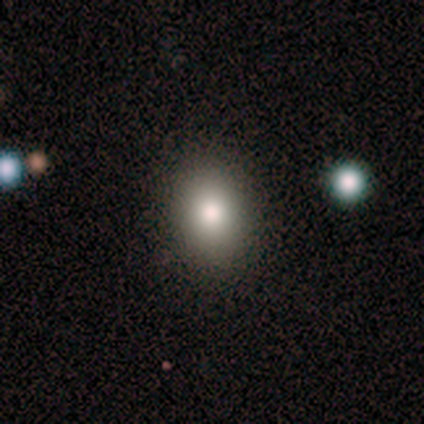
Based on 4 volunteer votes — This appears to be a smooth galaxy with no disk features (75%) that is round (67%). Merging: none (100%).